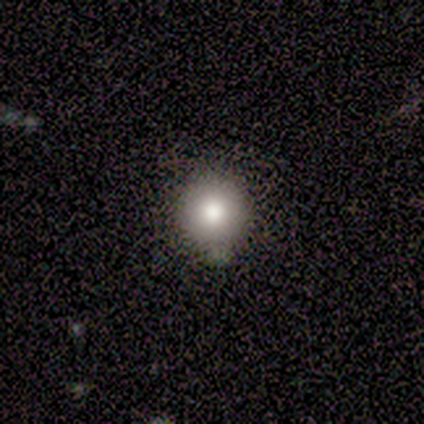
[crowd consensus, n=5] Morphology: type=smooth (100%); roundness=round (100%); merging=none (80%).